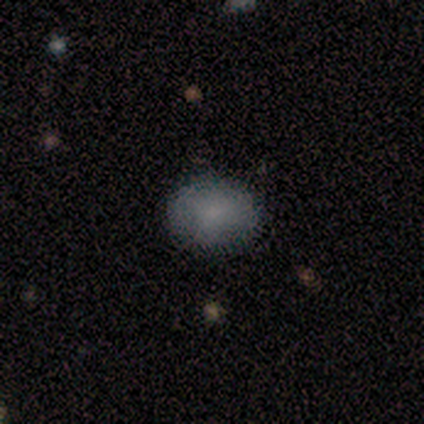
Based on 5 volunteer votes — Volunteers were most divided on "smooth or featured": smooth: 60%, featured or disk: 40%, star or artifact: 0%. More confident: merging — none (80%); how rounded — in between (67%).